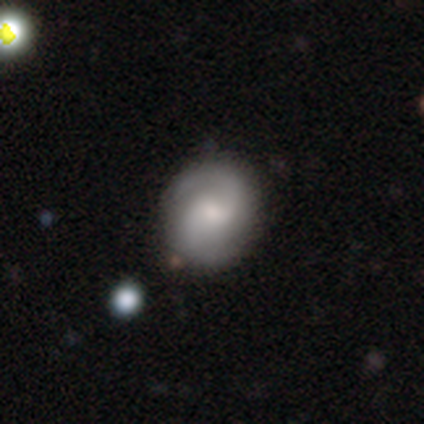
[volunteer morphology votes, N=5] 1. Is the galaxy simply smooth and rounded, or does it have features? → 80% featured or disk, 20% smooth, 0% star or artifact.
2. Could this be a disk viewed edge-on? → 75% no, 25% yes.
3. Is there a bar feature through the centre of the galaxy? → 100% weak, 0% strong, 0% no.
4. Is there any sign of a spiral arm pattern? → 67% yes, 33% no.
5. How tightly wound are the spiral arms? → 100% medium, 0% tight, 0% loose.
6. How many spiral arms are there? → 100% 2, 0% 1, 0% 3, 0% 4, 0% more than 4, 0% can't tell.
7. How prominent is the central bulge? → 67% moderate, 33% none, 0% dominant, 0% large, 0% small.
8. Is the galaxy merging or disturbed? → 40% none, 20% minor disturbance, 20% major disturbance, 20% merger.